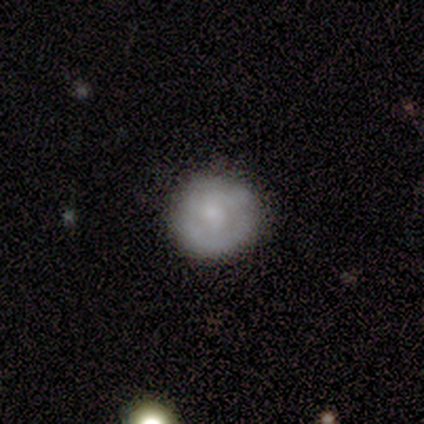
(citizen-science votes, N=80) Smooth or featured?
  - smooth: 55% *
  - featured or disk: 42%
  - star or artifact: 2%
How rounded?
  - round: 93% *
  - in between: 7%
  - cigar-shaped: 0%
Merging?
  - none: 33% *
  - minor disturbance: 13%
  - major disturbance: 3%
  - merger: 3%